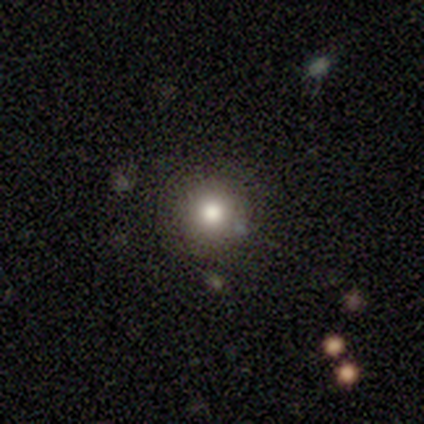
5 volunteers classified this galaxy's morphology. Consensus on every question: smooth or featured — smooth (100%); how rounded — round (100%); merging — none (100%).